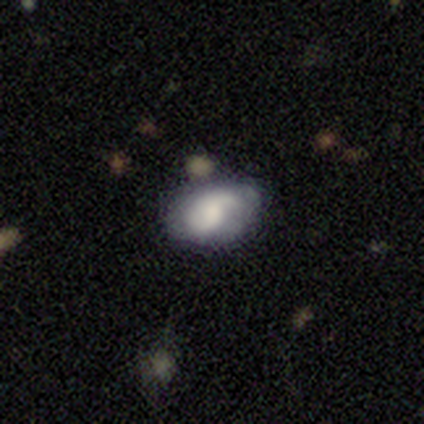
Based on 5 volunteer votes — Morphology: type=smooth (60%); roundness=in between (100%); merging=none (60%).